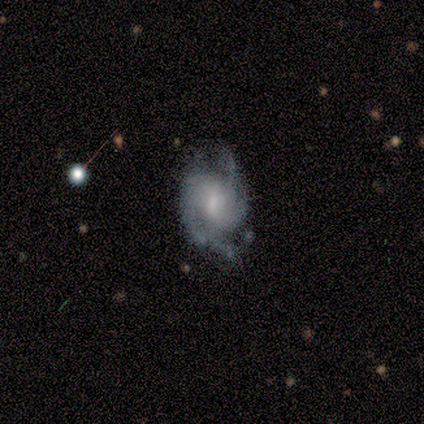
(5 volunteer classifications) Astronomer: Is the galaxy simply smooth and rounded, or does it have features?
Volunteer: featured or disk — 100%.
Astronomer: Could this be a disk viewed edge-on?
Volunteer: no — 100%.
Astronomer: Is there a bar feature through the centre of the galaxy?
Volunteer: no — 60% (runner-up: weak, 40%).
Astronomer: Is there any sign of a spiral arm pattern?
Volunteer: yes — 100%.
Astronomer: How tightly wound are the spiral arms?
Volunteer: tight — 60%.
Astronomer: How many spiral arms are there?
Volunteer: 2 — 40%, tied with can't tell at 40%.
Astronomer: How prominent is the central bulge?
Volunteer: moderate — 60% (runner-up: small, 40%).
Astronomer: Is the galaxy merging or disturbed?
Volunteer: none — 60%.